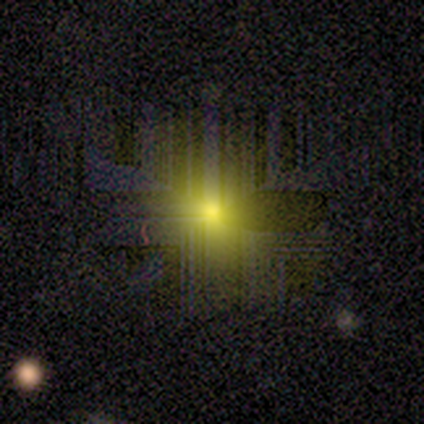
Smooth or featured? 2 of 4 (50%, tied with star or artifact) said smooth. How rounded? 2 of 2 (100%) said in between. Merging? 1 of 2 (50%, tied with minor disturbance) said none.